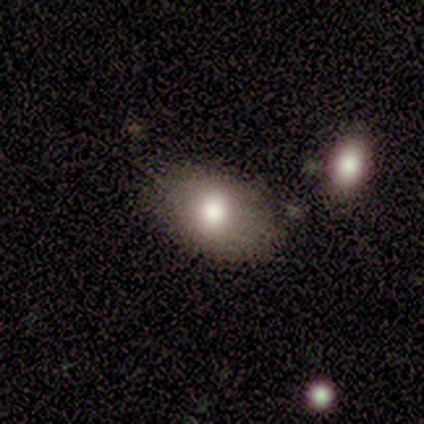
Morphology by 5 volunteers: Smooth or featured: smooth — 40% (tied with star or artifact — 40%)
How rounded: in between — 100%
Merging: none — 67% (minor disturbance — 33%)